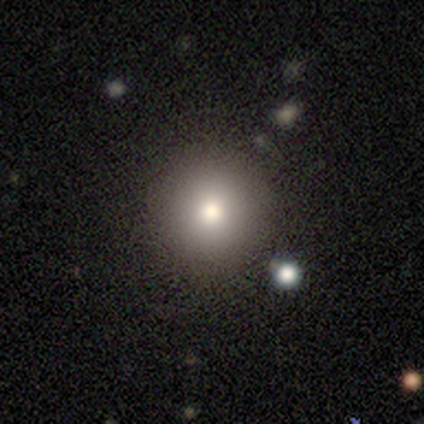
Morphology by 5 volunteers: A smooth galaxy with no disk features (80%) that is round (100%).

Vote fractions:
- Smooth or featured? smooth: 80% / star or artifact: 20% / featured or disk: 0%
- How rounded? round: 100% / in between: 0% / cigar-shaped: 0%
- Merging? none: 100% / minor disturbance: 0% / major disturbance: 0% / merger: 0%